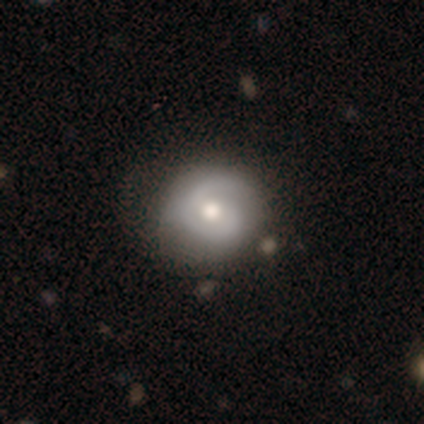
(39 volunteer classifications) A featured or disk galaxy (69%) with no bar (65%), 2 (52%) tight (61%) spiral arms (88%) and a moderate central bulge (73%). Merging: none (53%).